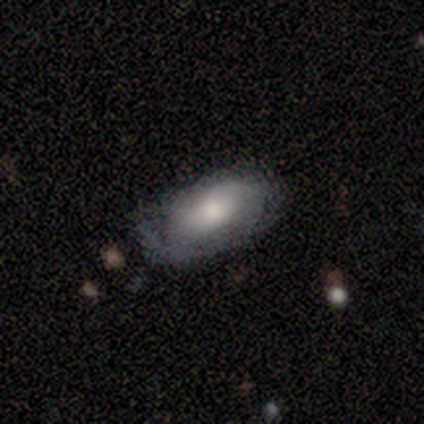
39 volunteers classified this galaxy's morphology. type=featured or disk (54%); edge-on=no (90%); bar=no (95%); spiral arms=yes (58%); winding=medium (55%); arm count=1 (64%); bulge=moderate (68%); merging=minor disturbance (43%).